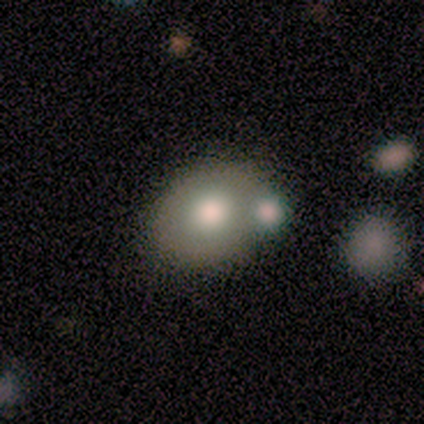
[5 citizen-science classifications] Overall: smooth (60%; featured or disk 20%). How rounded: in between (67%; round 33%). Merging: none (50%, tied with merger).